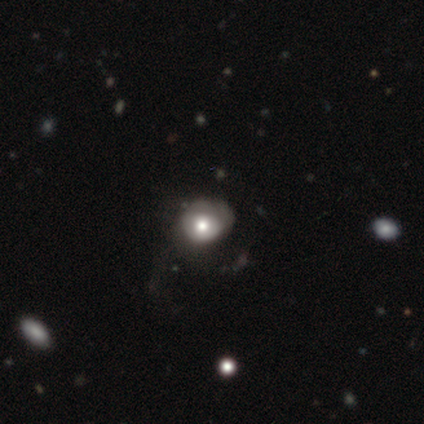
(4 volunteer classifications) smooth-or-featured: smooth: 75% | star or artifact: 25% | featured or disk: 0%
  how-rounded: round: 67% | in between: 33% | cigar-shaped: 0%
  merging: minor disturbance: 67% | none: 33% | major disturbance: 0% | merger: 0%